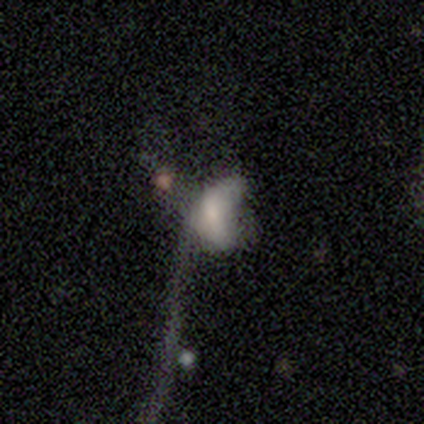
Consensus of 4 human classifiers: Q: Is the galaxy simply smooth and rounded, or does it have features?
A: smooth — 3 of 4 (75%).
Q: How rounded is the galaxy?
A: in between — 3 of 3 (100%).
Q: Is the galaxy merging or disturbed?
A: merger — 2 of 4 (50%).